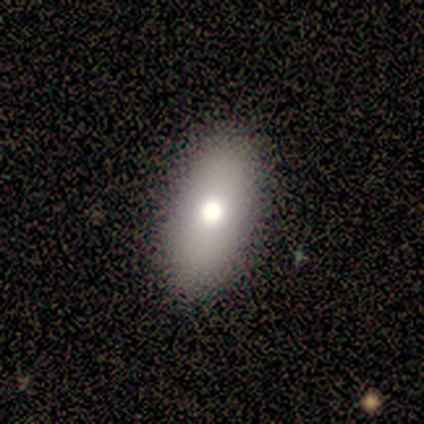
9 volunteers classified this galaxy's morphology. Overall: smooth (89%). How rounded: in between (88%). Merging: none (75%).